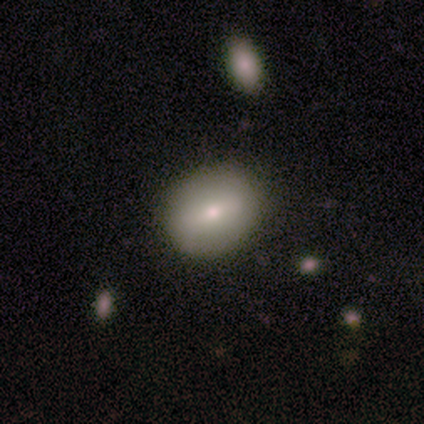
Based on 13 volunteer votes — This is clearly a smooth galaxy (92%). How rounded: possibly in between (58%). Merging: clearly none (85%).